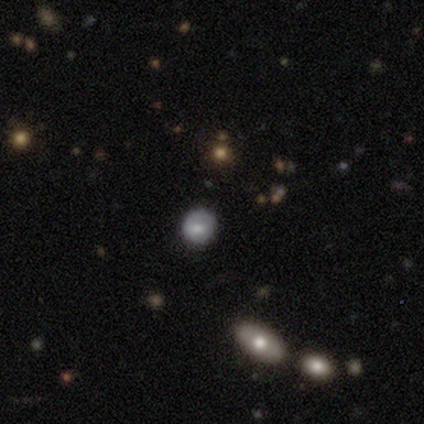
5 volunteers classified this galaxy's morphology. Smooth or featured?
  - smooth: 100% *
  - featured or disk: 0%
  - star or artifact: 0%
How rounded?
  - round: 80% *
  - in between: 20%
  - cigar-shaped: 0%
Merging?
  - none: 60% *
  - major disturbance: 40%
  - minor disturbance: 0%
  - merger: 0%